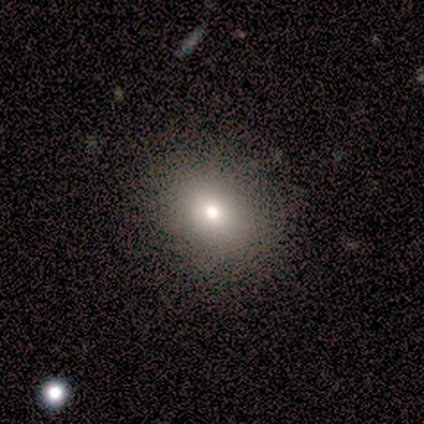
smooth 83%, featured or disk 17%, star or artifact 0%. Down the decision tree: how rounded — round (60%); merging — none (92%).